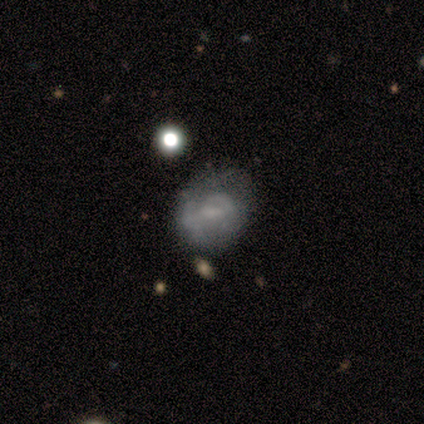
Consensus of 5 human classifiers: Morphology: type=smooth (80%); roundness=in between (50%); merging=major disturbance (60%).